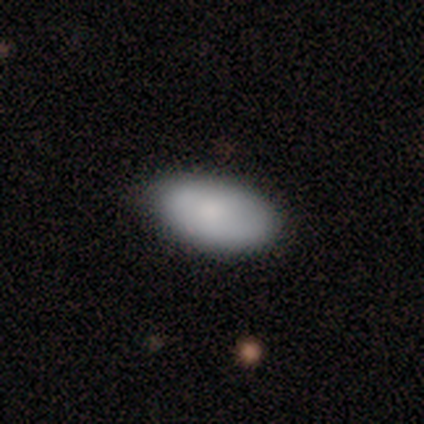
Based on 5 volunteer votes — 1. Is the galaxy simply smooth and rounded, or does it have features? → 100% smooth, 0% featured or disk, 0% star or artifact.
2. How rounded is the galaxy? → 100% in between, 0% round, 0% cigar-shaped.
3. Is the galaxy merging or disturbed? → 80% none, 20% minor disturbance, 0% major disturbance, 0% merger.